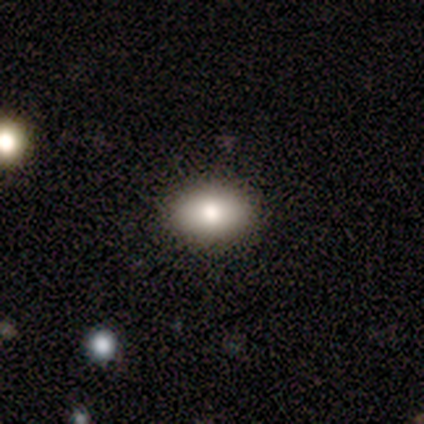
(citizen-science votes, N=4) Overall: smooth (50%, tied with star or artifact). How rounded: round (50%, tied with in between). Merging: none (100%).